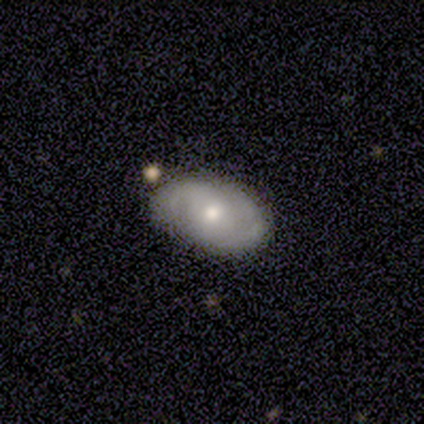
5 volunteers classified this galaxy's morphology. Smooth or featured: featured or disk — 60% (smooth — 20%)
Edge-on disk: no — 100%
Bar: no — 100%
Spiral arms: yes — 67% (no — 33%)
Spiral winding: tight — 50% (tied with medium — 50%)
Spiral arm count: can't tell — 100%
Bulge size: moderate — 100%
Merging: minor disturbance — 75% (none — 25%)